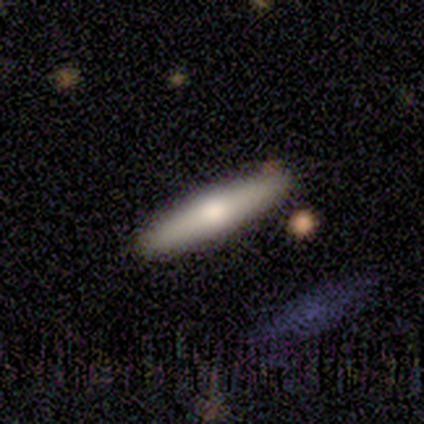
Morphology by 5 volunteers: Smooth or featured? 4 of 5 (80%) said smooth. How rounded? 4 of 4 (100%) said cigar-shaped. Merging? 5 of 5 (100%) said none.